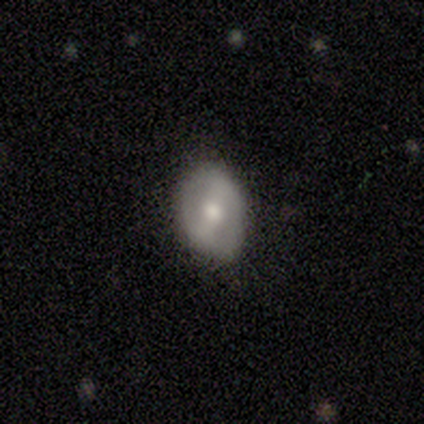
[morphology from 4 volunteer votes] Smooth or featured: featured or disk — 100%
Edge-on disk: no — 75% (yes — 25%)
Bar: strong — 67% (weak — 33%)
Spiral arms: no — 100%
Bulge size: moderate — 67% (small — 33%)
Merging: none — 75% (minor disturbance — 25%)